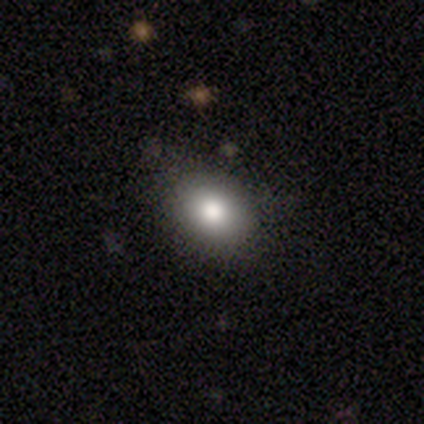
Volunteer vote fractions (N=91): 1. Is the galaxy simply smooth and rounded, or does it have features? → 77% smooth, 14% star or artifact, 9% featured or disk.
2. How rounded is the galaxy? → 69% in between, 30% round, 1% cigar-shaped.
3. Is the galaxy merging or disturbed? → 83% none, 12% minor disturbance, 5% major disturbance, 0% merger.